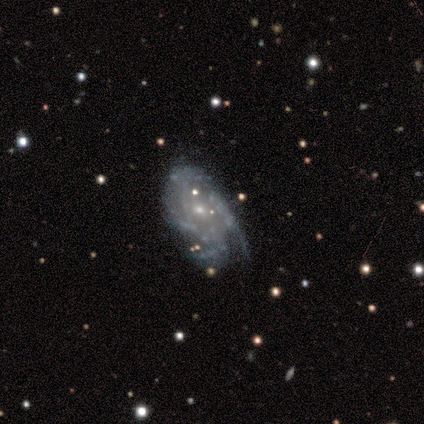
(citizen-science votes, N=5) Smooth or featured? featured or disk (80%)
Edge-on disk? no (100%)
Bar? no (75%)
Spiral arms? yes (100%)
Spiral winding? tight (50%)
Spiral arm count? 1 (25%, tied with 2, 3 and can't tell)
Bulge size? small (75%)
Merging? none (60%)